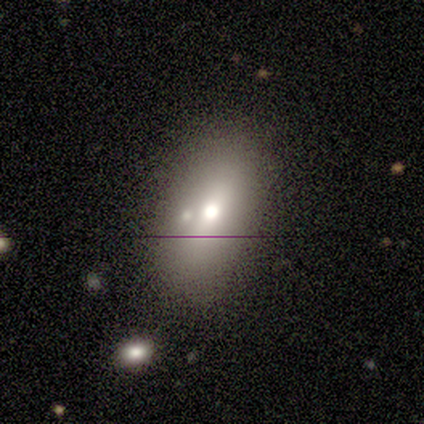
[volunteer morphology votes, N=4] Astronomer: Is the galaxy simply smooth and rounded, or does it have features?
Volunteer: smooth — 100%.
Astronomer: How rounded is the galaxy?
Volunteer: in between — 75%.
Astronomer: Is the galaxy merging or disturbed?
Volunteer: none — 75%.